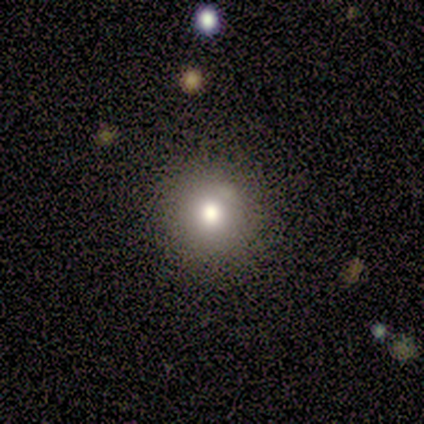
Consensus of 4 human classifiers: Morphology: type=smooth (50%); roundness=round (100%); merging=none (100%).